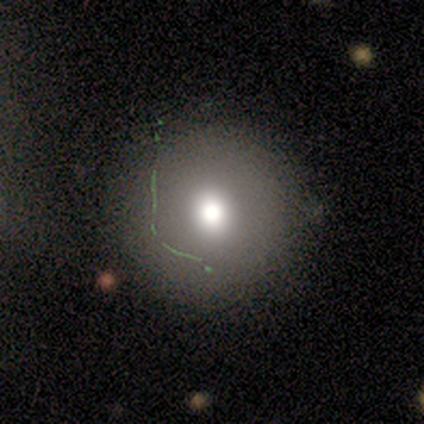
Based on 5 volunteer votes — This is likely a smooth galaxy (60%). How rounded: clearly round (100%). Merging: clearly none (100%).